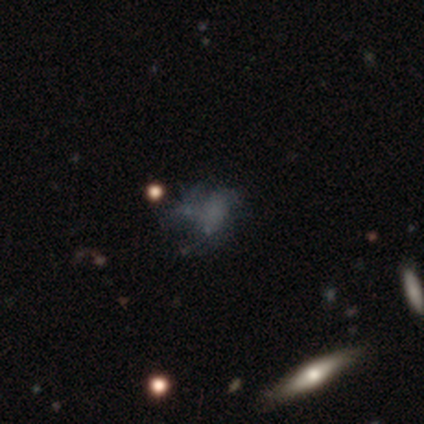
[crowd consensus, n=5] Smooth or featured: featured or disk — 60% (smooth — 40%)
Edge-on disk: no — 100%
Bar: no — 100%
Spiral arms: no — 100%
Bulge size: none — 100%
Merging: major disturbance — 60% (none — 40%)